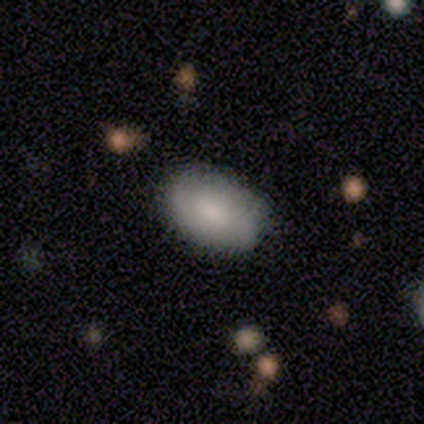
This is clearly a smooth galaxy (100%). How rounded: clearly in between (80%). Merging: clearly none (100%).